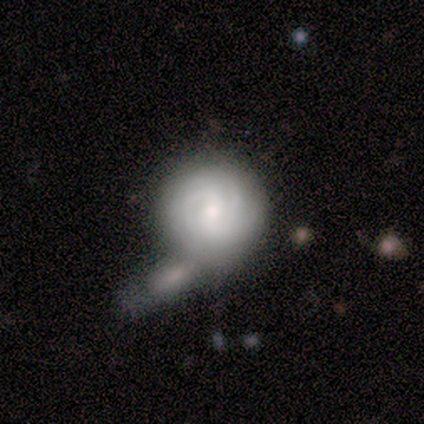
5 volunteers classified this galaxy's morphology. Q: Smooth or featured?
A: featured or disk (100%)
Q: Edge-on disk?
A: no (100%)
Q: Bar?
A: no (60%); runner-up: weak (40%)
Q: Spiral arms?
A: yes (100%)
Q: Spiral winding?
A: tight (80%); runner-up: medium (20%)
Q: Spiral arm count?
A: can't tell (80%); runner-up: 3 (20%)
Q: Bulge size?
A: moderate (60%); runner-up: small (20%)
Q: Merging?
A: merger (80%); runner-up: none (20%)